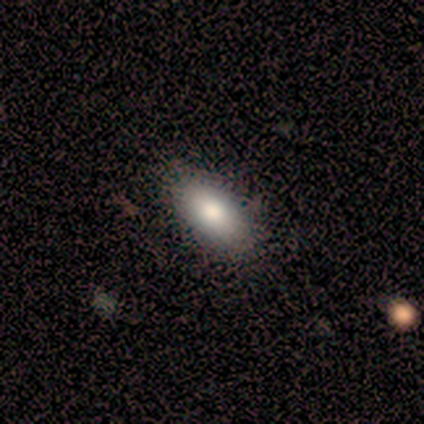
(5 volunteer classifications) Overall: smooth (80%). How rounded: in between (100%). Merging: none (100%).